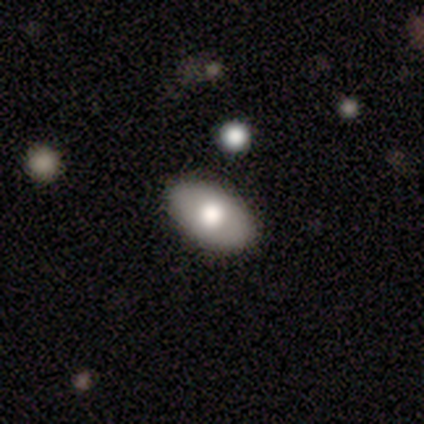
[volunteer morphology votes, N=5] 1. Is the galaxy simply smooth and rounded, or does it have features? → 80% smooth, 20% star or artifact, 0% featured or disk.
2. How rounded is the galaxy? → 75% in between, 25% round, 0% cigar-shaped.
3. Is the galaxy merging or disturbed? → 100% none, 0% minor disturbance, 0% major disturbance, 0% merger.